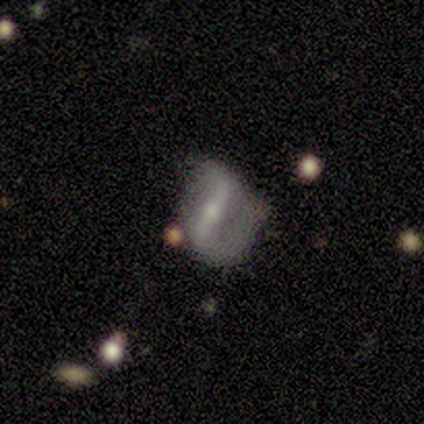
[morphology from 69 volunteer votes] A featured or disk galaxy (88%) with a strong bar (72%), 2 (90%) loose (39%) spiral arms (85%) and a small central bulge (55%).

Vote fractions:
- Smooth or featured? featured or disk: 88% / star or artifact: 7% / smooth: 4%
- Edge-on disk? no: 98% / yes: 2%
- Bar? strong: 72% / weak: 23% / no: 5%
- Spiral arms? yes: 85% / no: 15%
- Spiral winding? loose: 39% / medium: 31% / tight: 29%
- Spiral arm count? 2: 90% / 1: 6% / can't tell: 4% / 3: 0% / 4: 0% / more than 4: 0%
- Bulge size? small: 55% / moderate: 38% / none: 5% / large: 2% / dominant: 0%
- Merging? none: 38% (tied) / minor disturbance: 38% (tied) / major disturbance: 20% / merger: 5%